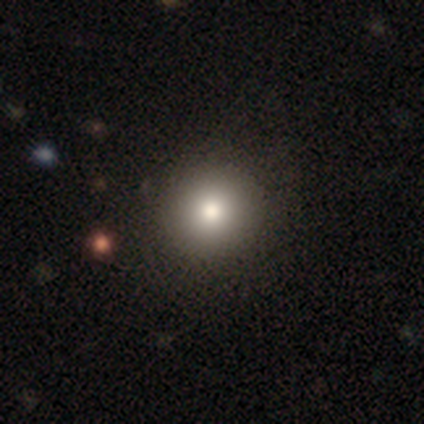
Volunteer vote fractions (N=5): Smooth or featured? smooth (100%)
How rounded? round (100%)
Merging? none (100%)